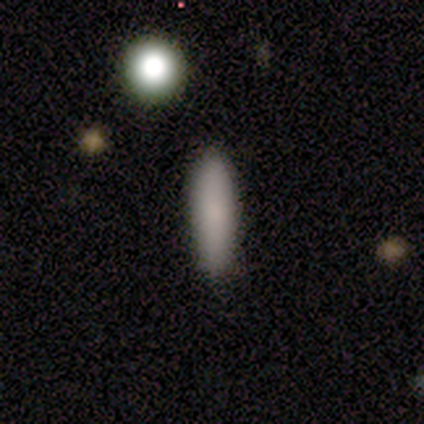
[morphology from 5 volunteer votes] This is clearly a smooth galaxy (80%). How rounded: likely cigar-shaped (75%). Merging: clearly none (100%).